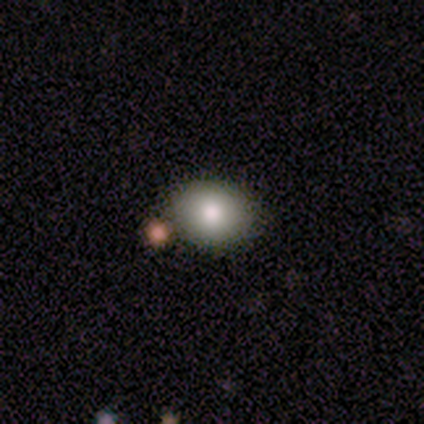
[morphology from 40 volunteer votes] Q: Smooth or featured?
A: smooth (80%); runner-up: featured or disk (10%)
Q: How rounded?
A: round (66%); runner-up: in between (34%)
Q: Merging?
A: none (92%); runner-up: minor disturbance (6%)